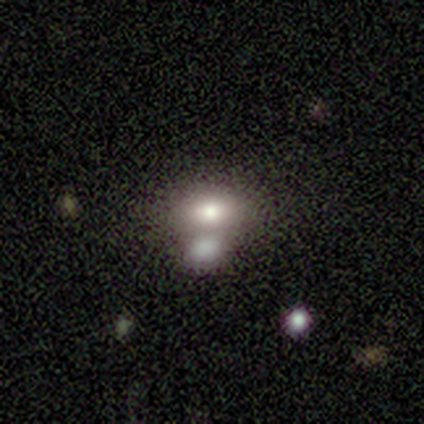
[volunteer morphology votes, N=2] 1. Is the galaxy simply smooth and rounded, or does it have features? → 50% smooth (tied), 50% star or artifact (tied), 0% featured or disk.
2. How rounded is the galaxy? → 100% in between, 0% round, 0% cigar-shaped.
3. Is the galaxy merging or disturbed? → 100% none, 0% minor disturbance, 0% major disturbance, 0% merger.